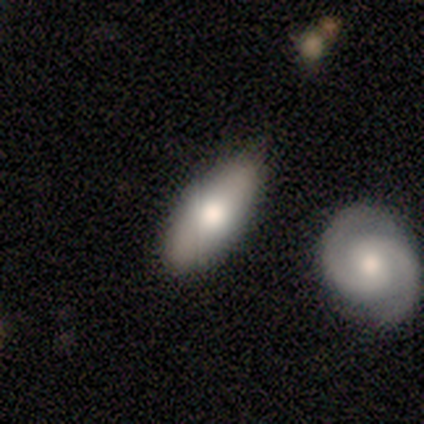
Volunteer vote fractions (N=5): A smooth galaxy with no disk features (80%) that is in between round and cigar-shaped (100%).

Vote fractions:
- Smooth or featured? smooth: 80% / featured or disk: 20% / star or artifact: 0%
- How rounded? in between: 100% / round: 0% / cigar-shaped: 0%
- Merging? none: 60% / merger: 40% / minor disturbance: 0% / major disturbance: 0%